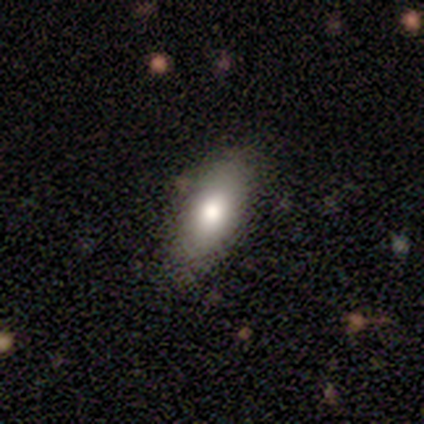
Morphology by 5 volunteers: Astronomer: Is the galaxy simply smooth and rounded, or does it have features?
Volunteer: smooth — 80%.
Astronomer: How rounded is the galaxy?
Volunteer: in between — 75%.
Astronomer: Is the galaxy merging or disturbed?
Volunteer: none — 60% (runner-up: minor disturbance, 40%).